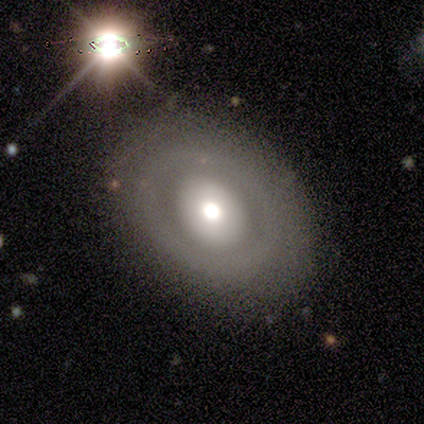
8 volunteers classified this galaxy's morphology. smooth-or-featured: featured or disk: 62% | smooth: 38% | star or artifact: 0%
  disk-edge-on: no: 100% | yes: 0%
    bar: no: 80% | weak: 20% | strong: 0%
    has-spiral-arms: no: 80% | yes: 20%
    bulge-size: moderate: 80% | large: 20% | dominant: 0% | small: 0% | none: 0%
  merging: none: 75% | merger: 25% | minor disturbance: 0% | major disturbance: 0%